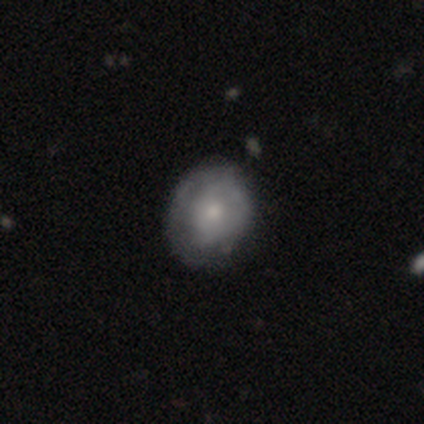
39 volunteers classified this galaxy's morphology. Volunteers were most divided on "bulge size": small: 55%, moderate: 36%, large: 5%, none: 5%, dominant: 0%. More confident: edge-on disk — no (96%); bar — no (86%); spiral arms — no (64%); smooth or featured — featured or disk (59%); merging — none (54%).